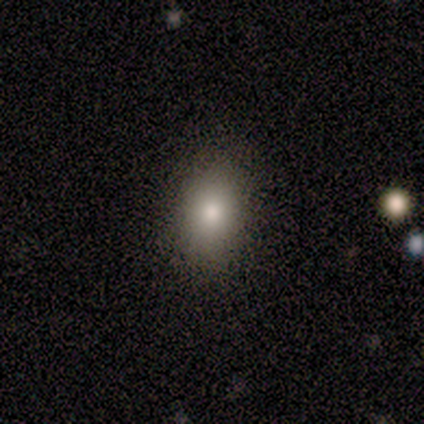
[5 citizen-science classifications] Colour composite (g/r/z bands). It shows a smooth galaxy with no disk features (80%) that is round (75%). Merging: none (100%).